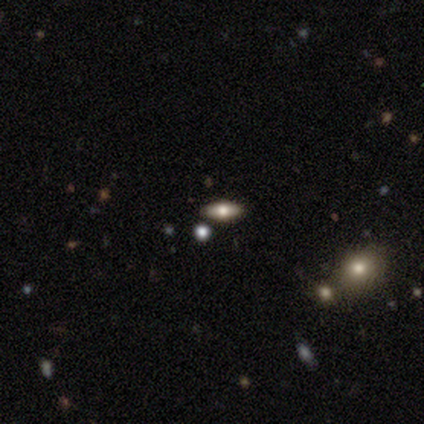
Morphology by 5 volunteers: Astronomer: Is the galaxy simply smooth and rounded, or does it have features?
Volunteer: smooth — 100%.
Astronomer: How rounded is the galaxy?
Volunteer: in between — 100%.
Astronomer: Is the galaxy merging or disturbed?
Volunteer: none — 100%.